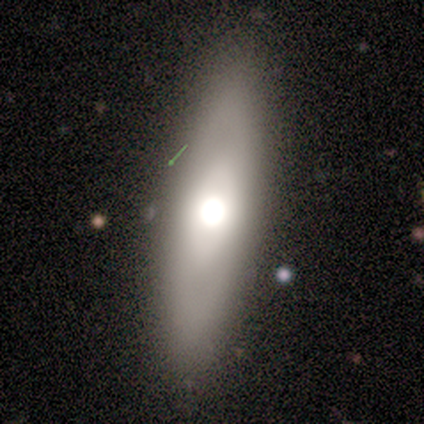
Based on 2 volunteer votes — Smooth or featured? featured or disk (100%)
Edge-on disk? yes (50%, tied with no)
Edge-on bulge? rounded (100%)
Merging? none (50%, tied with minor disturbance)